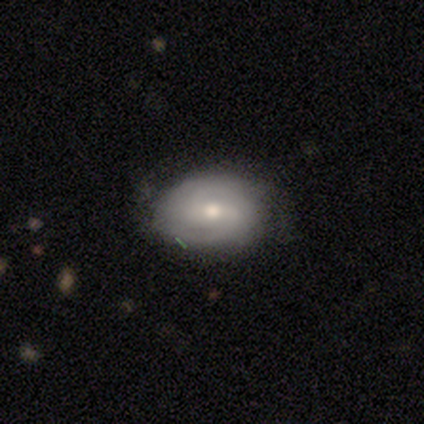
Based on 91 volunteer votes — This is possibly a featured or disk galaxy (58%). It is clearly not viewed edge-on (96%). Bar: possibly weak (49%). Spiral arm pattern: clearly yes (80%). Spiral arm count: marginally 2 (44%). Spiral winding: possibly tight (59%). Central bulge: likely moderate (65%). Merging: likely none (75%).